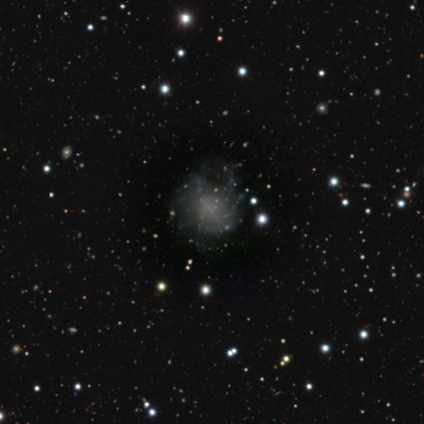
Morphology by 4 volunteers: Overall: smooth (50%; featured or disk 25%). How rounded: round (50%, tied with in between). Merging: none (33%, tied with minor disturbance and merger).